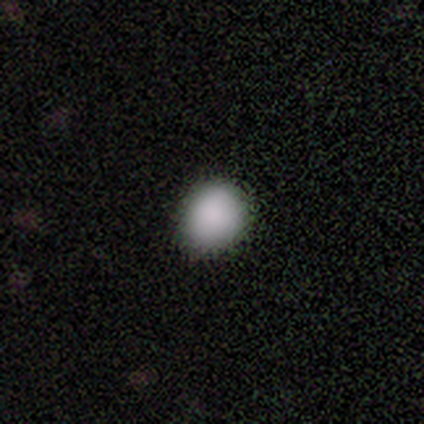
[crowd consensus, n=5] A smooth galaxy with no disk features (100%) that is round (60%). Merging: none (100%).